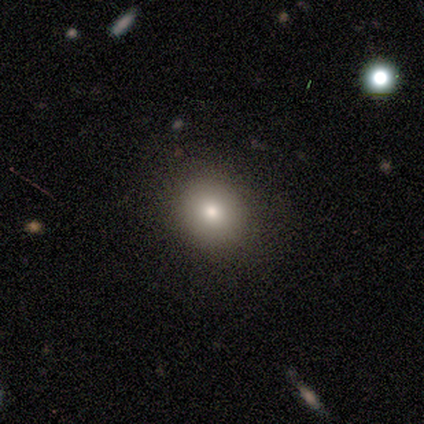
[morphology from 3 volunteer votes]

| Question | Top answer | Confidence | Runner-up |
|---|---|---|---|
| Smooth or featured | smooth | 100% | — |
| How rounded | in between | 67% | round (33%) |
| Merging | none | 100% | — |